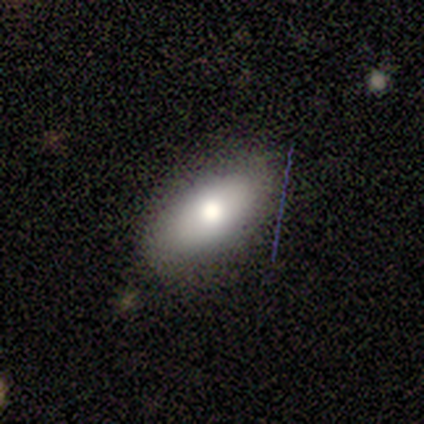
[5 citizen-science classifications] smooth 80%, star or artifact 20%, featured or disk 0%. Down the decision tree: how rounded — in between (75%); merging — none (100%).